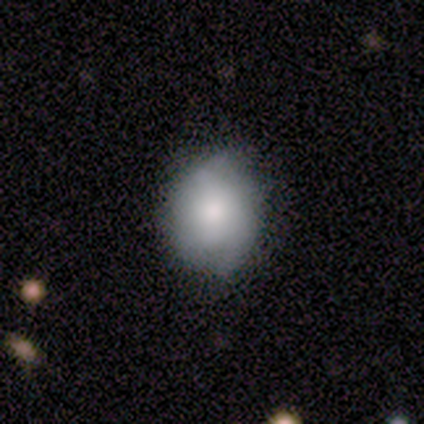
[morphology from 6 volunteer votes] type=smooth (50%, tied with featured or disk); roundness=in between (67%); merging=none (50%, tied with minor disturbance).